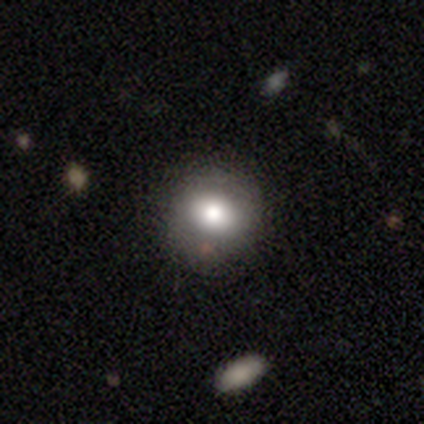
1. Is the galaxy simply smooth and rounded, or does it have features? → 80% featured or disk, 20% smooth, 0% star or artifact.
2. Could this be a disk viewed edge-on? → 75% no, 25% yes.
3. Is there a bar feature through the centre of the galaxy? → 100% no, 0% strong, 0% weak.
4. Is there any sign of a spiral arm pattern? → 100% no, 0% yes.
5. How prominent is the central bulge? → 67% large, 33% moderate, 0% dominant, 0% small, 0% none.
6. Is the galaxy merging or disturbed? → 60% none, 20% minor disturbance, 20% major disturbance, 0% merger.